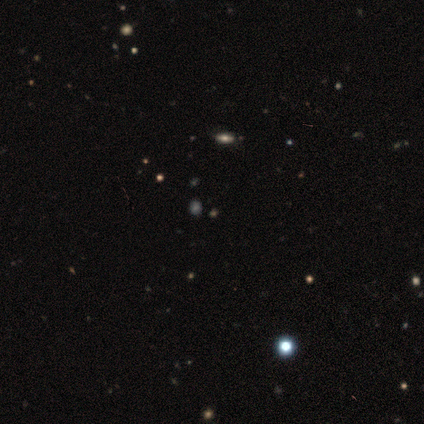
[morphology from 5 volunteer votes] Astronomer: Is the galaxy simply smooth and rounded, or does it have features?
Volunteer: star or artifact — 60% (runner-up: smooth, 40%).